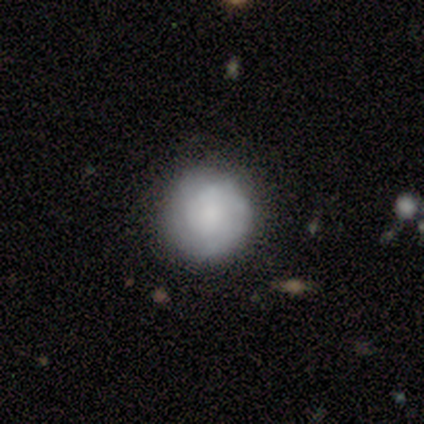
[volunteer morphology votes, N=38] smooth 58%, featured or disk 37%, star or artifact 5%. Down the decision tree: how rounded — round (95%); merging — none (81%).